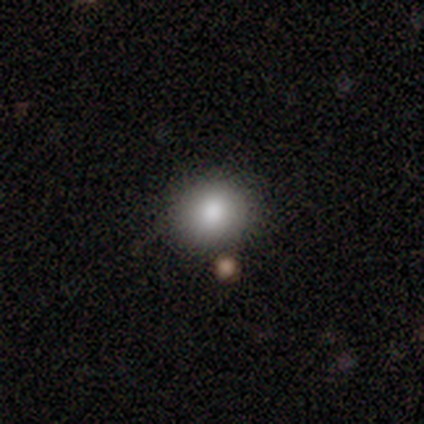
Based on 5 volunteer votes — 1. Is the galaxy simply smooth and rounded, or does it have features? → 80% smooth, 20% featured or disk, 0% star or artifact.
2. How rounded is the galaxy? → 100% round, 0% in between, 0% cigar-shaped.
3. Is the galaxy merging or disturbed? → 80% none, 20% merger, 0% minor disturbance, 0% major disturbance.